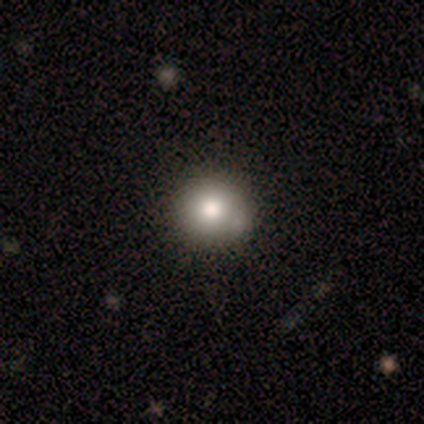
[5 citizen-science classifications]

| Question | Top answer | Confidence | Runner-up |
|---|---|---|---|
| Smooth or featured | smooth | 80% | featured or disk (20%) |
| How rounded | round | 100% | — |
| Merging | none | 100% | — |